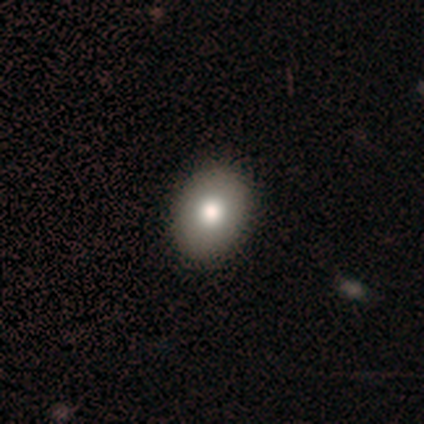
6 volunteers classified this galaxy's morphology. This appears to be a smooth galaxy with no disk features (83%) that is in between round and cigar-shaped (100%). Merging: none (100%).